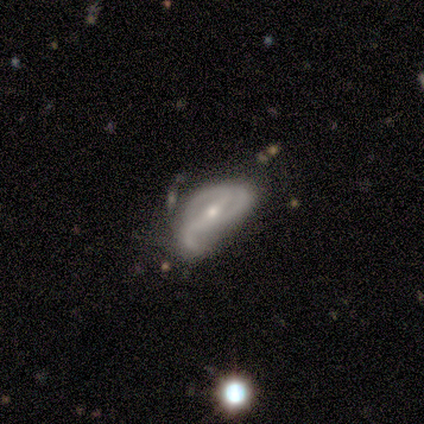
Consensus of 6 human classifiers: smooth-or-featured: featured or disk: 100% | smooth: 0% | star or artifact: 0%
  disk-edge-on: no: 83% | yes: 17%
    bar: strong: 40% (tied) | weak: 40% (tied) | no: 20%
    has-spiral-arms: yes: 60% | no: 40%
      spiral-winding: medium: 67% | tight: 33% | loose: 0%
      spiral-arm-count: 3: 67% | 1: 33% | 2: 0% | 4: 0% | more than 4: 0% | can't tell: 0%
    bulge-size: moderate: 60% | small: 40% | dominant: 0% | large: 0% | none: 0%
  merging: major disturbance: 50% | none: 17% | minor disturbance: 17% | merger: 17%